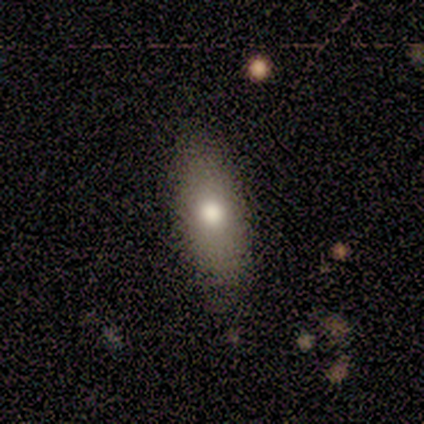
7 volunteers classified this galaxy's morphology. This appears to be a smooth galaxy with no disk features (57%) that is in between round and cigar-shaped (75%). Merging: none (71%).